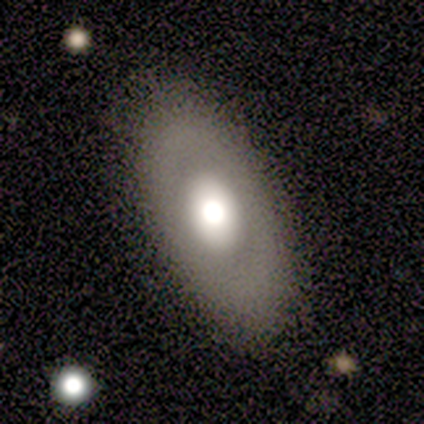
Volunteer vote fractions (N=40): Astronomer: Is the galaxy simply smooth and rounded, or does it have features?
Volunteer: smooth — 52% (runner-up: featured or disk, 42%).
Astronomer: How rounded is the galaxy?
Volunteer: in between — 71%.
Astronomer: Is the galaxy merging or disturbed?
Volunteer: none — 87%.